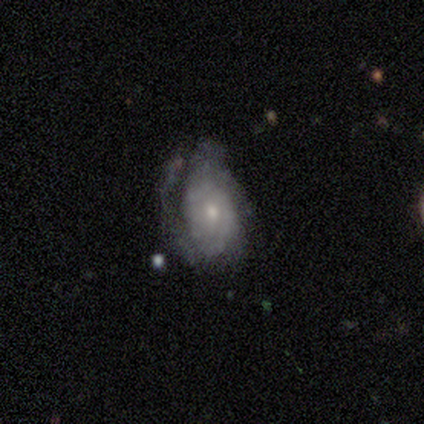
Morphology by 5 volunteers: A smooth galaxy with no disk features (60%) that is in between round and cigar-shaped (100%).

Vote fractions:
- Smooth or featured? smooth: 60% / featured or disk: 40% / star or artifact: 0%
- How rounded? in between: 100% / round: 0% / cigar-shaped: 0%
- Merging? none: 100% / minor disturbance: 0% / major disturbance: 0% / merger: 0%